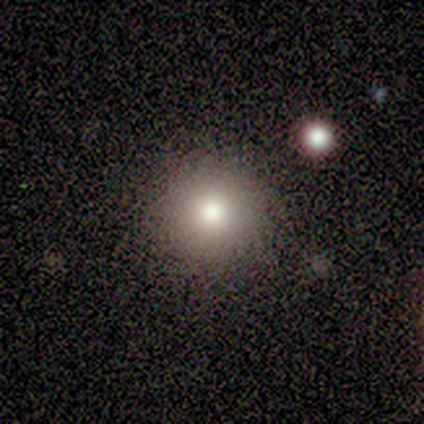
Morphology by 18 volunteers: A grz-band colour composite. It shows a smooth galaxy with no disk features (83%) that is round (93%). Merging: none (88%).